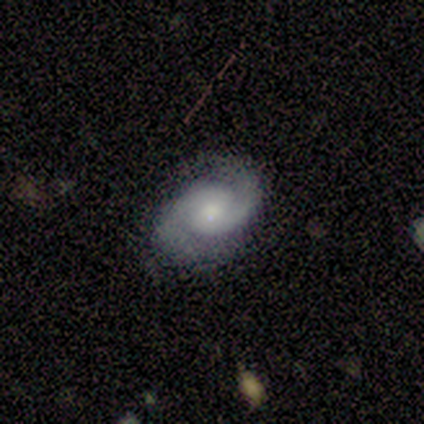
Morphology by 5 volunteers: This is clearly a featured or disk galaxy (100%). It is clearly not viewed edge-on (100%). Bar: likely no (60%). Spiral arm pattern: clearly yes (100%). Spiral arm count: clearly 2 (100%). Spiral winding: clearly medium (80%). Central bulge: clearly moderate (80%). Merging: marginally none (40%, tied with minor disturbance).